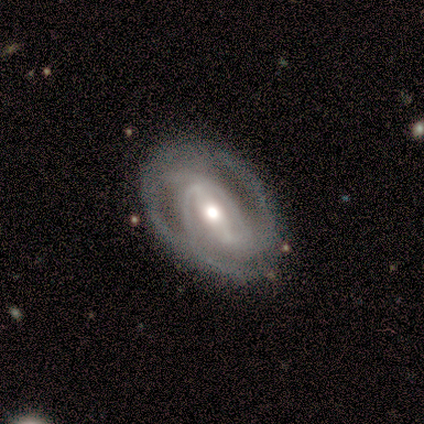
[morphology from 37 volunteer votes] This is clearly a featured or disk galaxy (95%). It is clearly not viewed edge-on (97%). Bar: possibly strong (59%). Spiral arm pattern: clearly yes (97%). Spiral arm count: possibly 2 (58%). Spiral winding: marginally tight (42%). Central bulge: likely moderate (74%). Merging: possibly none (49%).